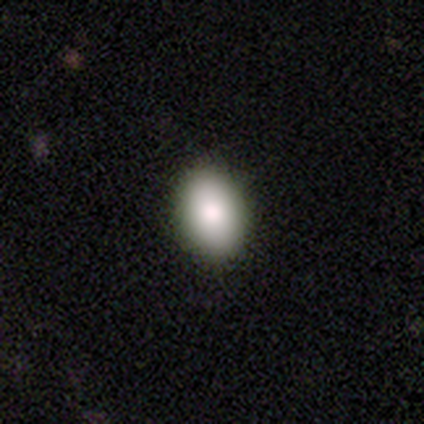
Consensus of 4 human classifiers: A smooth galaxy with no disk features (100%) that is in between round and cigar-shaped (75%). Merging: none (75%).